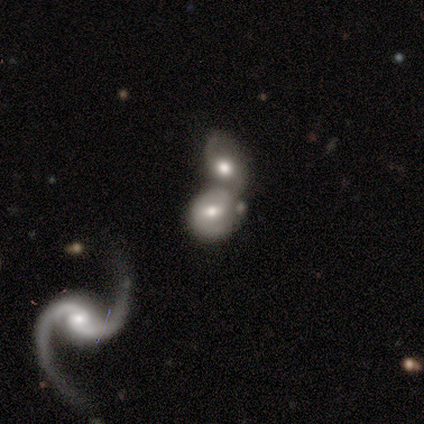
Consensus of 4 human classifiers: Overall: featured or disk (75%). Edge-on disk: no (100%). Bar: no (67%; weak 33%). Spiral arms: yes (67%; no 33%). Spiral arm count: 2 (100%). Spiral winding: tight (50%, tied with loose). Bulge size: moderate (100%). Merging: merger (67%; none 33%).